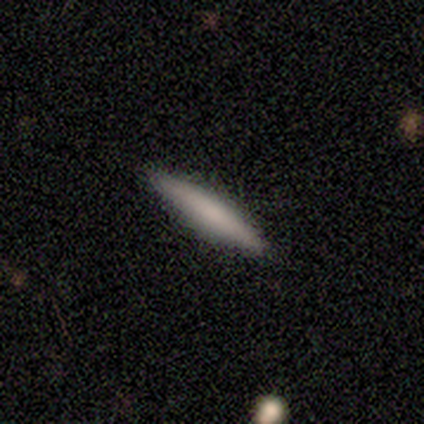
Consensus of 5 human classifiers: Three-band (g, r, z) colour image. It shows a smooth galaxy with no disk features (100%) that is cigar-shaped (100%). Merging: none (100%).